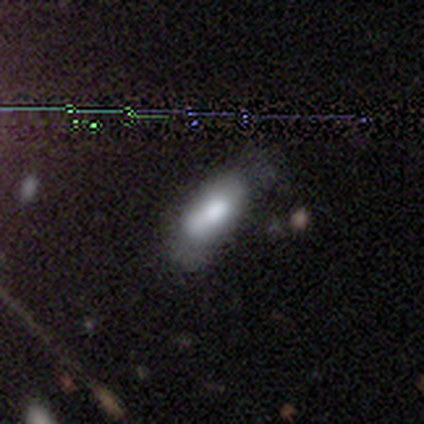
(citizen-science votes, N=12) This appears to be a smooth galaxy with no disk features (67%) that is in between round and cigar-shaped (50%, tied with cigar-shaped). Merging: none (50%).